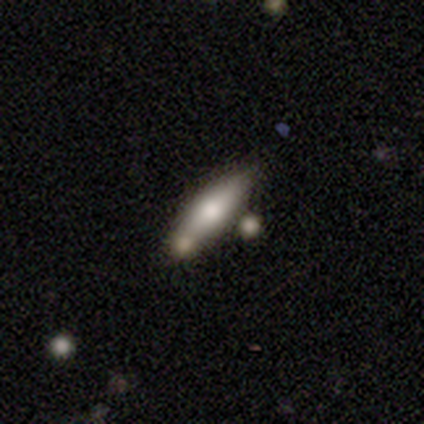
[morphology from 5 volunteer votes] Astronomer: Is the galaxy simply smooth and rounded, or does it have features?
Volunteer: smooth — 80%.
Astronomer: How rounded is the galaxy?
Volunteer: in between — 75%.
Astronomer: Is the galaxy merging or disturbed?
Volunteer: none — 40% (runner-up: minor disturbance, 20%).